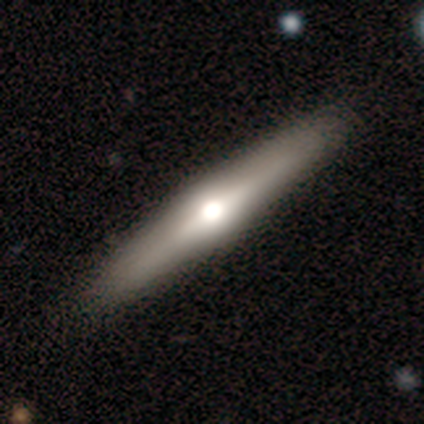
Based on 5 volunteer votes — Smooth or featured? 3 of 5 (60%) said featured or disk. Edge-on disk? 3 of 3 (100%) said yes. Edge-on bulge? 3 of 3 (100%) said rounded. Merging? 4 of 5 (80%) said none.